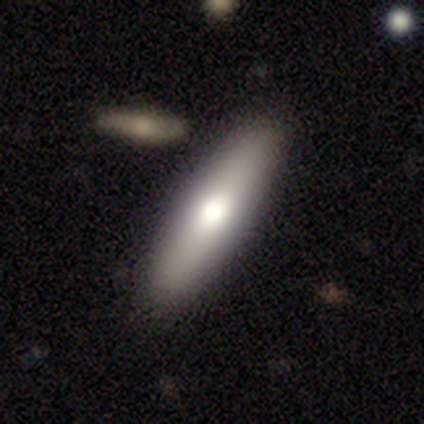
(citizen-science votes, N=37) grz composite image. It shows a smooth galaxy with no disk features (59%) that is cigar-shaped (68%). Merging: none (89%).